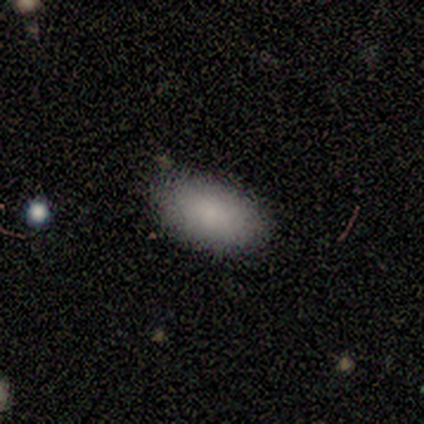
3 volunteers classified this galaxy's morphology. Overall: smooth (100%). How rounded: in between (100%). Merging: none (67%; minor disturbance 33%).